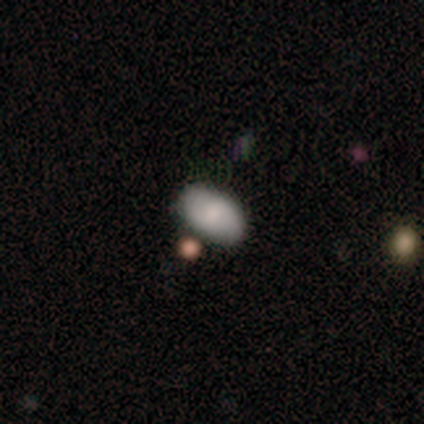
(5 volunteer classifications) Smooth or featured: smooth — 60% (featured or disk — 20%)
How rounded: in between — 100%
Merging: none — 75% (minor disturbance — 25%)